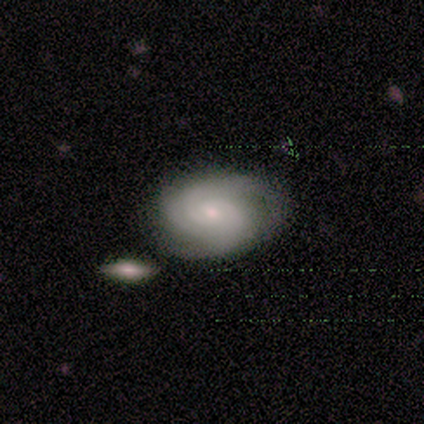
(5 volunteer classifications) Smooth or featured: featured or disk — 60% (smooth — 40%)
Edge-on disk: no — 100%
Bar: no — 100%
Spiral arms: yes — 100%
Spiral winding: tight — 67% (loose — 33%)
Spiral arm count: can't tell — 100%
Bulge size: small — 100%
Merging: none — 80% (merger — 20%)